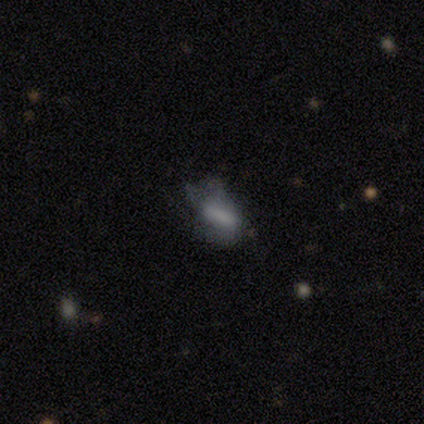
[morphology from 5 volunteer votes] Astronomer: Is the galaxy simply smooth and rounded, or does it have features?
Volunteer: smooth — 40%, tied with featured or disk at 40%.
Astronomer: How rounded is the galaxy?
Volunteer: in between — 100%.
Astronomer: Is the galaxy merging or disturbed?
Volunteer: major disturbance — 50%.